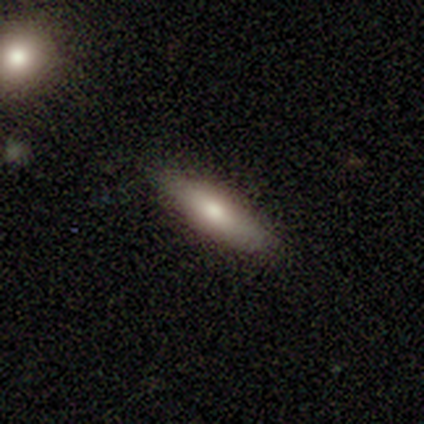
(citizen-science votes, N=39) This is likely a smooth galaxy (64%). How rounded: likely cigar-shaped (76%). Merging: clearly none (89%).